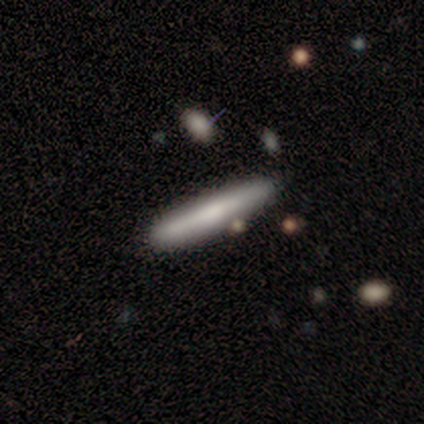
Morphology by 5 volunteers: smooth 80%, featured or disk 20%, star or artifact 0%. Down the decision tree: how rounded — cigar-shaped (100%); merging — none (80%).